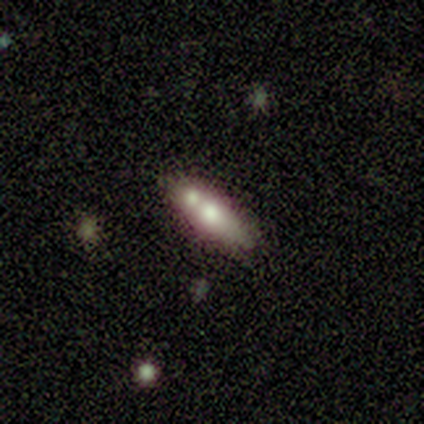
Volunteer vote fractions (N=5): Overall: smooth (80%). How rounded: cigar-shaped (100%). Merging: merger (60%; none 40%).